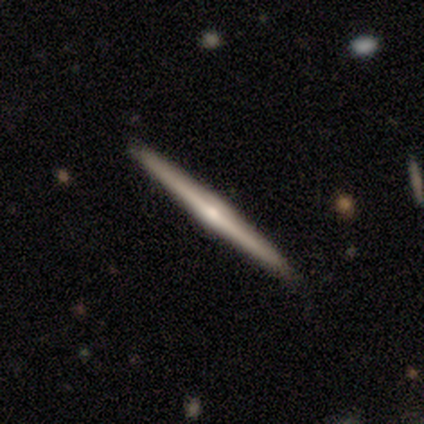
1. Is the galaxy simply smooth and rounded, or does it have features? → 100% featured or disk, 0% smooth, 0% star or artifact.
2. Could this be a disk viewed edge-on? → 100% yes, 0% no.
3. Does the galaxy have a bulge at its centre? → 100% rounded, 0% boxy, 0% none.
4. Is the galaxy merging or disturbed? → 100% none, 0% minor disturbance, 0% major disturbance, 0% merger.